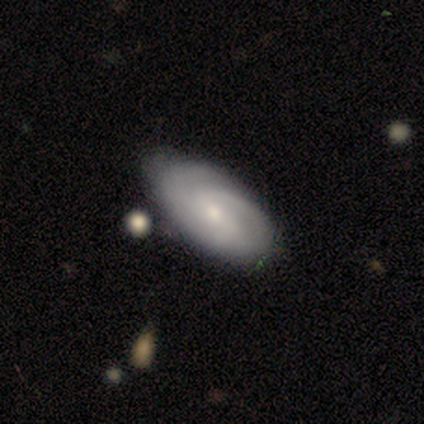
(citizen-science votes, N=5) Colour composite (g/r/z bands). It shows a featured or disk galaxy (60%) with no bar (67%), 3 (100%) medium (67%) spiral arms (100%) and a small central bulge (100%). Merging: minor disturbance (60%).